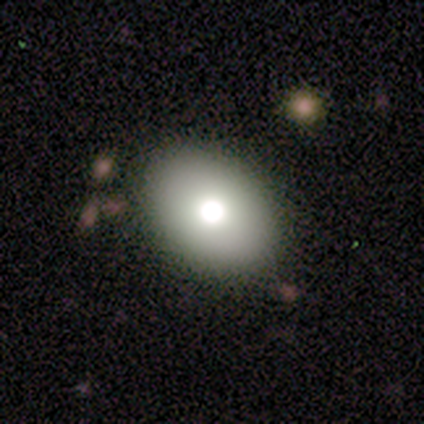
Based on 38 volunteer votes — A smooth galaxy with no disk features (74%) that is in between round and cigar-shaped (79%).

Vote fractions:
- Smooth or featured? smooth: 74% / featured or disk: 16% / star or artifact: 11%
- How rounded? in between: 79% / round: 21% / cigar-shaped: 0%
- Merging? none: 91% / minor disturbance: 6% / major disturbance: 3% / merger: 0%